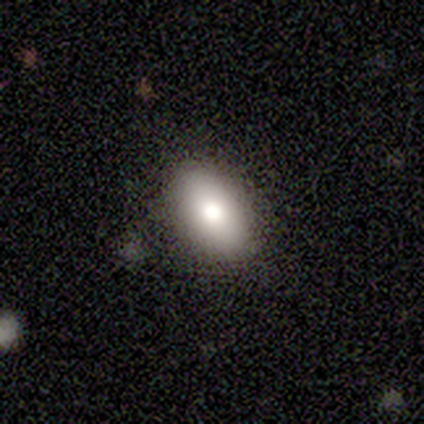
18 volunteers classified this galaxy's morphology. type=smooth (78%); roundness=in between (93%); merging=none (82%).